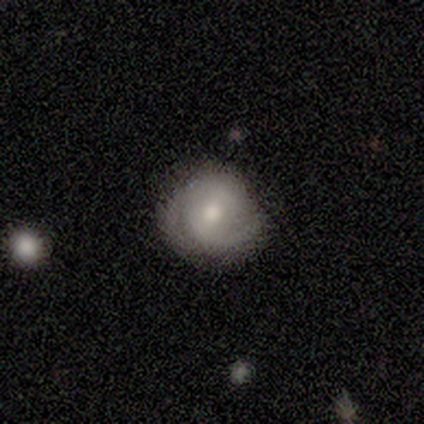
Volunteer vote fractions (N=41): A featured or disk galaxy (73%) with a weak bar (48%), 2 (77%) tight (46%, tied with medium) spiral arms (90%) and a moderate central bulge (69%).

Vote fractions:
- Smooth or featured? featured or disk: 73% / smooth: 24% / star or artifact: 2%
- Edge-on disk? no: 97% / yes: 3%
- Bar? weak: 48% / no: 34% / strong: 17%
- Spiral arms? yes: 90% / no: 10%
- Spiral winding? tight: 46% (tied) / medium: 46% (tied) / loose: 8%
- Spiral arm count? 2: 77% / 1: 8% / can't tell: 8% / 3: 4% / more than 4: 4% / 4: 0%
- Bulge size? moderate: 69% / small: 17% / large: 10% / dominant: 3% / none: 0%
- Merging? none: 52% / minor disturbance: 35% / major disturbance: 8% / merger: 5%